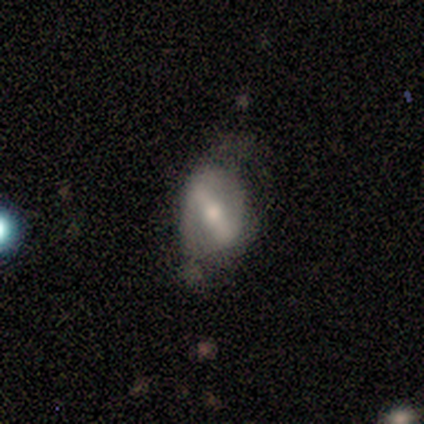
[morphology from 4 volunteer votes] Q: Smooth or featured?
A: featured or disk (100%)
Q: Edge-on disk?
A: no (75%); runner-up: yes (25%)
Q: Bar?
A: strong (67%); runner-up: no (33%)
Q: Spiral arms?
A: yes (100%)
Q: Spiral winding?
A: medium (67%); runner-up: loose (33%)
Q: Spiral arm count?
A: 2 (100%)
Q: Bulge size?
A: moderate (100%)
Q: Merging?
A: minor disturbance (75%); runner-up: major disturbance (25%)